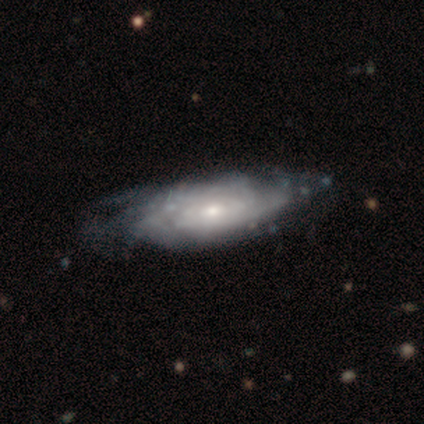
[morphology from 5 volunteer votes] featured or disk 100%, smooth 0%, star or artifact 0%. Down the decision tree: edge-on disk — no (80%); bar — no (100%); spiral arms — yes (100%); spiral arm count — 2 (50%); spiral winding — tight (50%, tied with medium); bulge size — moderate (50%, tied with small); merging — none (80%).